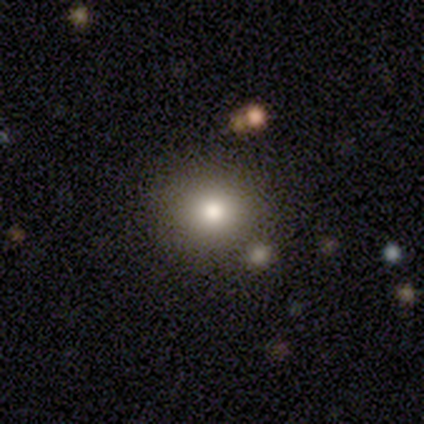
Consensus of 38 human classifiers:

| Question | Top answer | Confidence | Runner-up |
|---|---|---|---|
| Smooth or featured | smooth | 82% | featured or disk (11%) |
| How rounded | round | 87% | in between (13%) |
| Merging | none | 80% | minor disturbance (11%) |